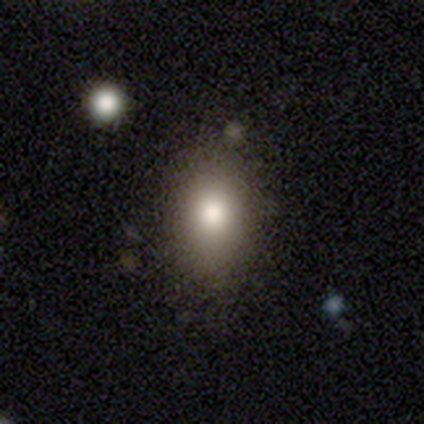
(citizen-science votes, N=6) This appears to be a smooth galaxy with no disk features (83%) that is in between round and cigar-shaped (100%). Merging: none (100%).